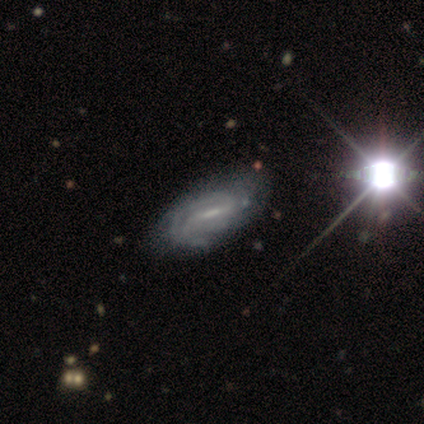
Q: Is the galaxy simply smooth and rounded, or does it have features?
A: featured or disk — 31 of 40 (78%).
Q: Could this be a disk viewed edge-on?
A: no — 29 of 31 (94%).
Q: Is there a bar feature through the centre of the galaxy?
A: strong — 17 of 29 (59%).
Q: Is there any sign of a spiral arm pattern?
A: yes — 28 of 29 (97%).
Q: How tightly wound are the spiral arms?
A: medium — 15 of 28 (54%).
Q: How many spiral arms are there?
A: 2 — 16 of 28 (57%).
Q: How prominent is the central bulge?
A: small — 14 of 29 (48%).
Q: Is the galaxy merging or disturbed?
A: none — 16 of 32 (50%).